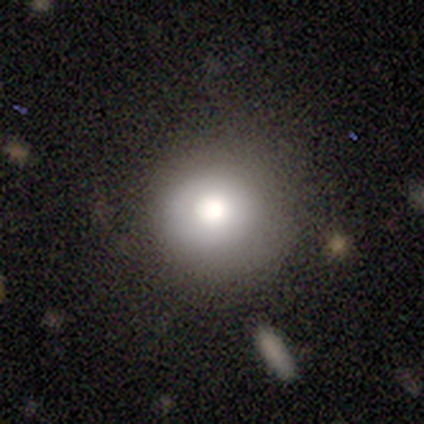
Smooth or featured?
  - smooth: 62% *
  - featured or disk: 27%
  - star or artifact: 11%
How rounded?
  - round: 91% *
  - in between: 9%
  - cigar-shaped: 0%
Merging?
  - none: 70% *
  - minor disturbance: 27%
  - major disturbance: 3%
  - merger: 0%